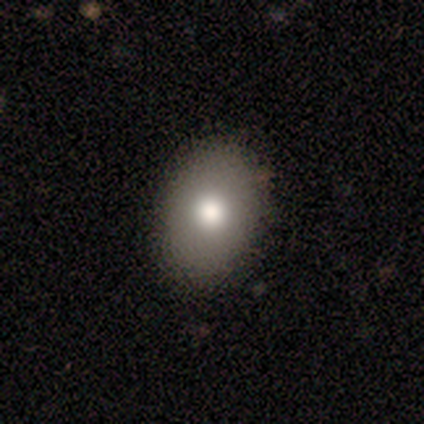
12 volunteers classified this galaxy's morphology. A smooth galaxy with no disk features (92%) that is in between round and cigar-shaped (82%).

Vote fractions:
- Smooth or featured? smooth: 92% / star or artifact: 8% / featured or disk: 0%
- How rounded? in between: 82% / round: 18% / cigar-shaped: 0%
- Merging? none: 82% / minor disturbance: 9% / major disturbance: 9% / merger: 0%